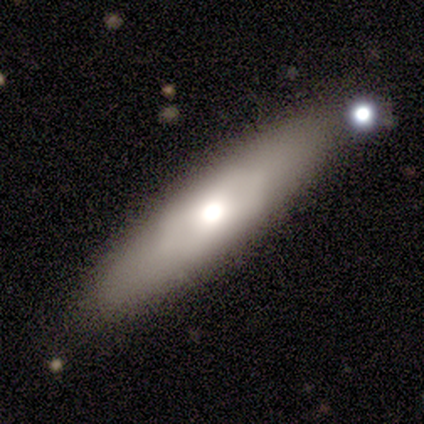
smooth_or_featured: smooth (p=0.59) [alt: featured or disk p=0.38]
how_rounded: cigar-shaped (p=0.70) [alt: in between p=0.30]
merging: none (p=0.89) [alt: minor disturbance p=0.08]